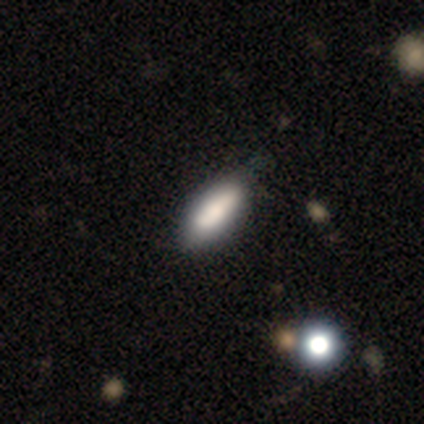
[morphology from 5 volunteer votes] Smooth or featured: smooth — 80% (star or artifact — 20%)
How rounded: in between — 50% (tied with cigar-shaped — 50%)
Merging: none — 75% (minor disturbance — 25%)